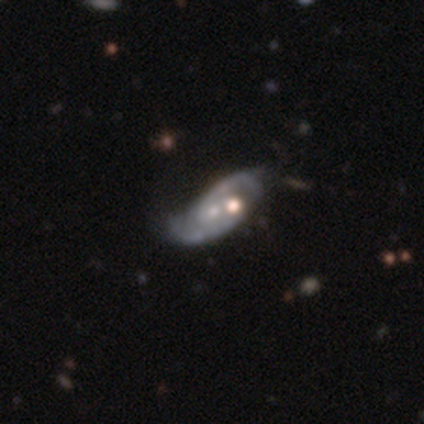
Overall: featured or disk (80%). Edge-on disk: no (100%). Bar: no (100%). Spiral arms: yes (75%). Spiral arm count: 2 (67%; can't tell 33%). Spiral winding: medium (67%; tight 33%). Bulge size: small (100%). Merging: none (50%; minor disturbance 25%).